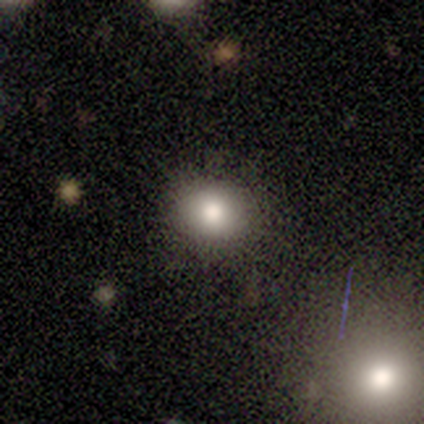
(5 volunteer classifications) Volunteers were most divided on "how rounded": round: 75%, in between: 25%, cigar-shaped: 0%. More confident: merging — none (100%); smooth or featured — smooth (80%).